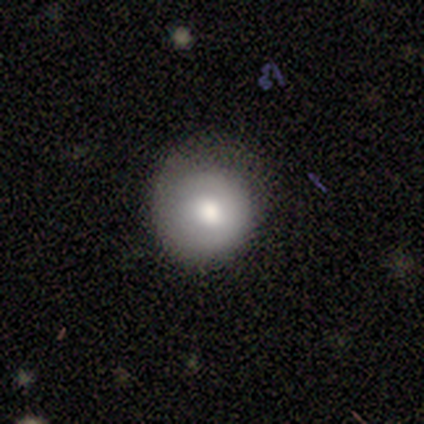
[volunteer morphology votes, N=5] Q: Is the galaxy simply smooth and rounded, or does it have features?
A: smooth — 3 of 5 (60%).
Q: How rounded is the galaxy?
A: round — 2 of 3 (67%).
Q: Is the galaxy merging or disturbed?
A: none — 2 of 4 (50%, tied with minor disturbance).